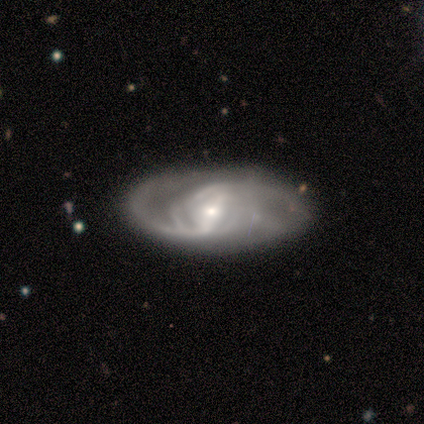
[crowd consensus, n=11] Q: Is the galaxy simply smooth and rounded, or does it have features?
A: featured or disk — 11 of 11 (100%).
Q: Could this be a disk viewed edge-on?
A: no — 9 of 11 (82%).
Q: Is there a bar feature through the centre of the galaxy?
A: strong — 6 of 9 (67%).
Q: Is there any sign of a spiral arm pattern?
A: yes — 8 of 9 (89%).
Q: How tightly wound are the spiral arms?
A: loose — 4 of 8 (50%).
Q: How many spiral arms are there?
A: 2 — 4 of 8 (50%).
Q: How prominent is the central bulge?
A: small — 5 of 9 (56%).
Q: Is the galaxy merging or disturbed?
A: none — 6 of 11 (55%).